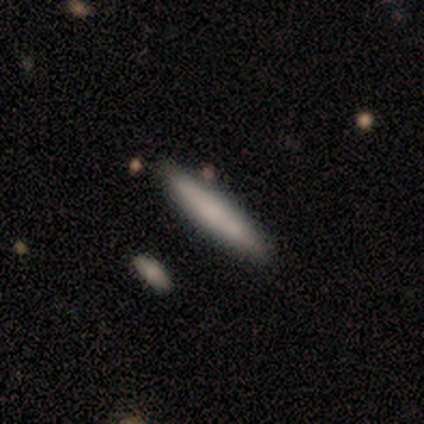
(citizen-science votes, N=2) smooth_or_featured: featured or disk (p=1.00)
disk_edge_on: yes (p=1.00)
edge_on_bulge: boxy (p=0.50) [tied with: none p=0.50]
merging: none (p=0.50) [tied with: minor disturbance p=0.50]